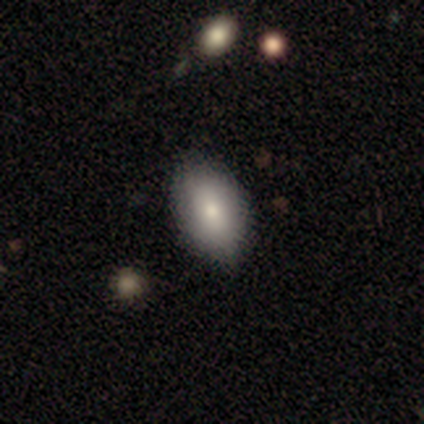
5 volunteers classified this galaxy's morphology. smooth 100%, featured or disk 0%, star or artifact 0%. Down the decision tree: how rounded — in between (100%); merging — none (60%).